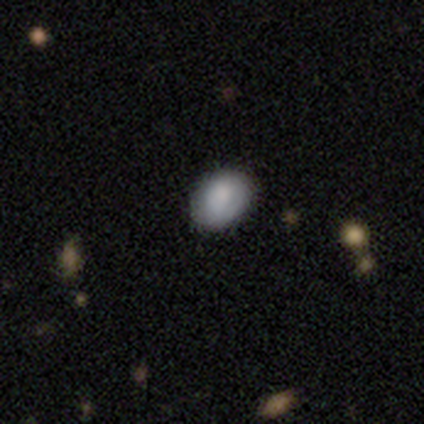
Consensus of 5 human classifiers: Morphology: type=smooth (100%); roundness=in between (80%); merging=none (80%).